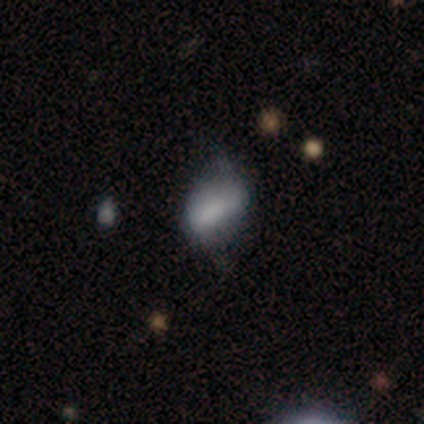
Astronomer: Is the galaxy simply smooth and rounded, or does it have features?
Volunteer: smooth — 69%.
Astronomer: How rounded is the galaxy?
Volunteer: in between — 67%.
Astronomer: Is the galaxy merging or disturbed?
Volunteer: none — 44% (runner-up: minor disturbance, 41%).